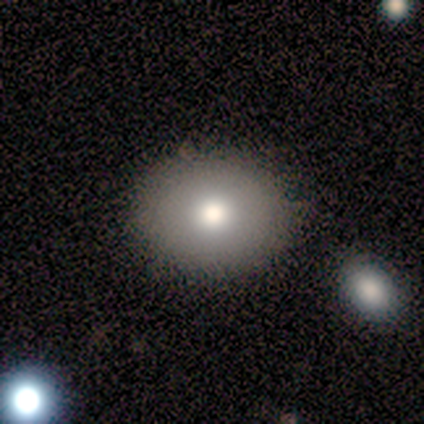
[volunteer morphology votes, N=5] Smooth or featured? 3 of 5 (60%) said smooth. How rounded? 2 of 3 (67%) said round. Merging? 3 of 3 (100%) said none.